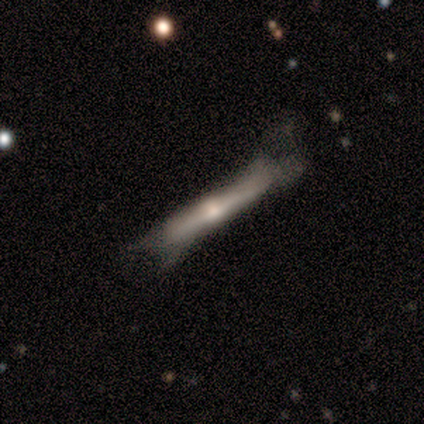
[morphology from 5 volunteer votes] Volunteers were most divided on "merging": minor disturbance: 60%, none: 40%, major disturbance: 0%, merger: 0%. More confident: edge-on disk — yes (100%); smooth or featured — featured or disk (80%); edge-on bulge — rounded (75%).